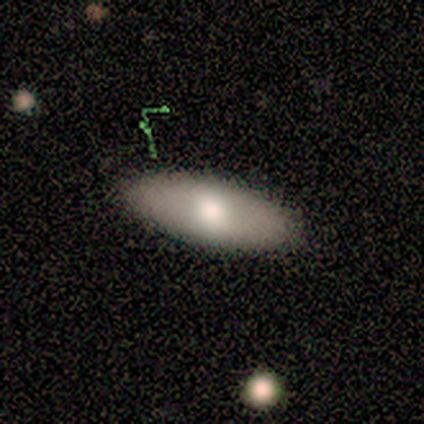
Volunteers were most divided on "how rounded": in between: 71%, cigar-shaped: 29%, round: 0%. More confident: merging — none (100%); smooth or featured — smooth (88%).